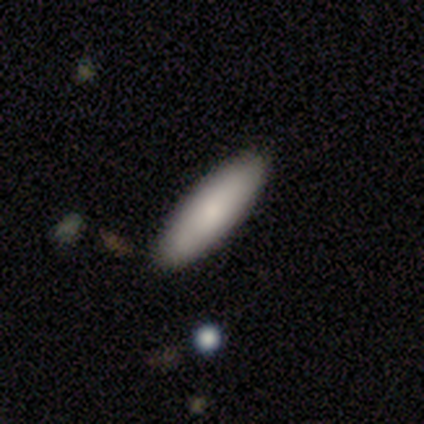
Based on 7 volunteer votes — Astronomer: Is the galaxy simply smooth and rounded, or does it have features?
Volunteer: smooth — 100%.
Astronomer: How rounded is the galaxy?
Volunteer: cigar-shaped — 71%.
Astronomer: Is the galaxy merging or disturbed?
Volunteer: none — 100%.